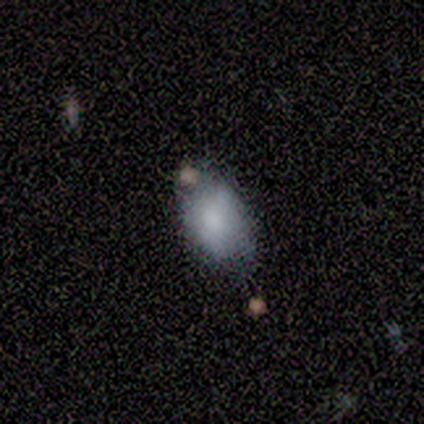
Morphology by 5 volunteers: This is clearly a smooth galaxy (80%). How rounded: clearly in between (100%). Merging: clearly minor disturbance (80%).